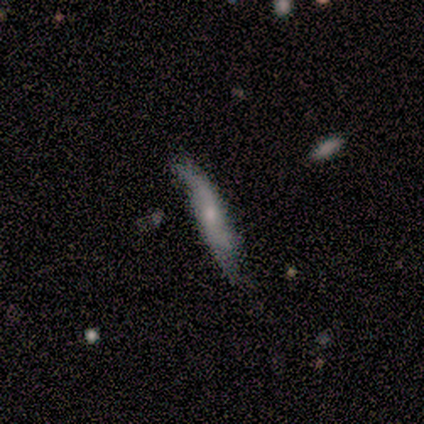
This is likely a smooth galaxy (60%). How rounded: clearly cigar-shaped (100%). Merging: clearly none (100%).